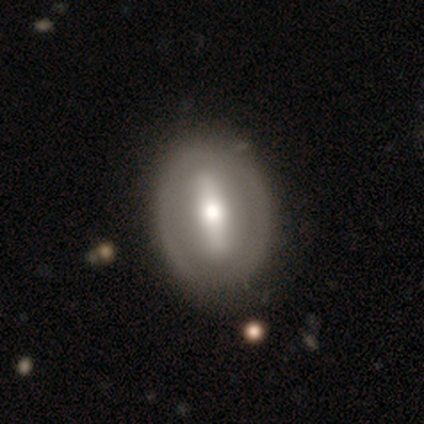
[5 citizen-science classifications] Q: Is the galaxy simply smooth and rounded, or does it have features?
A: smooth — 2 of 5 (40%, tied with featured or disk).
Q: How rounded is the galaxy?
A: in between — 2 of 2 (100%).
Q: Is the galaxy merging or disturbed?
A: none — 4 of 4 (100%).